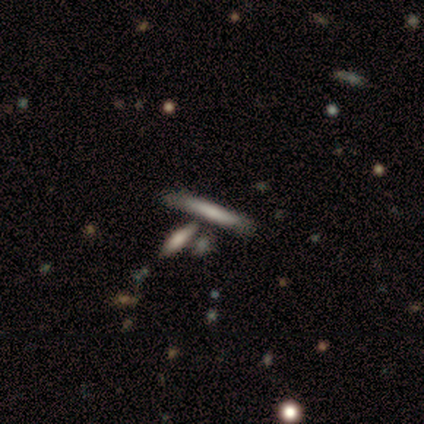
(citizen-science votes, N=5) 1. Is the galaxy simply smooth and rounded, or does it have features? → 80% smooth, 20% featured or disk, 0% star or artifact.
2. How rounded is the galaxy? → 100% cigar-shaped, 0% round, 0% in between.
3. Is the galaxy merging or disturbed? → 100% none, 0% minor disturbance, 0% major disturbance, 0% merger.